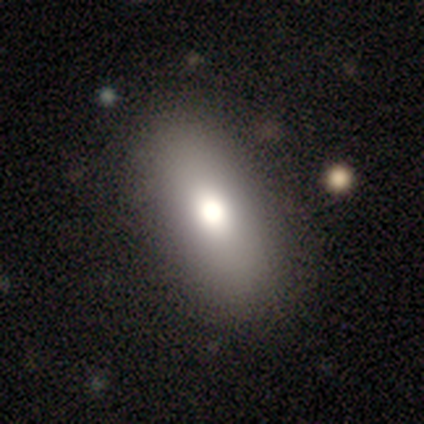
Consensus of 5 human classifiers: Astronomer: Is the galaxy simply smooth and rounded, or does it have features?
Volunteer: smooth — 60% (runner-up: featured or disk, 40%).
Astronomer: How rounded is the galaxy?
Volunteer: in between — 67%.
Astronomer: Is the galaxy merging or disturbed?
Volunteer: none — 80%.